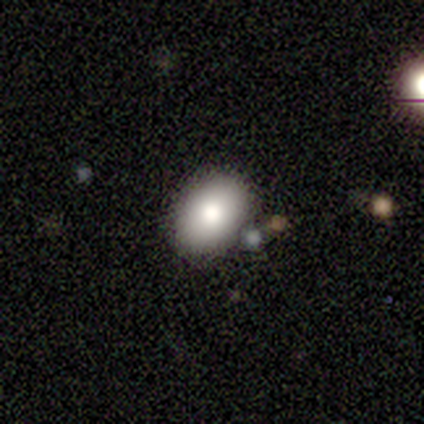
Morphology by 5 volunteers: A smooth galaxy with no disk features (80%) that is in between round and cigar-shaped (75%).

Vote fractions:
- Smooth or featured? smooth: 80% / featured or disk: 20% / star or artifact: 0%
- How rounded? in between: 75% / round: 25% / cigar-shaped: 0%
- Merging? none: 60% / minor disturbance: 20% / merger: 20% / major disturbance: 0%